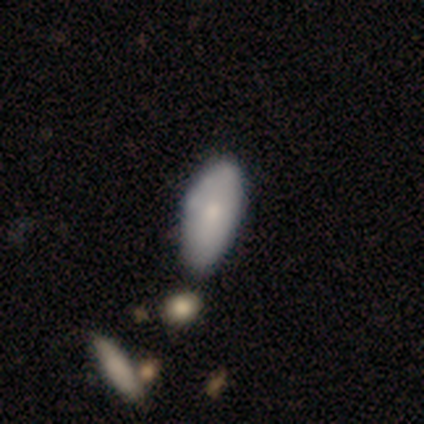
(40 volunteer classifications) smooth 72%, featured or disk 25%, star or artifact 2%. Down the decision tree: how rounded — in between (97%); merging — none (41%).